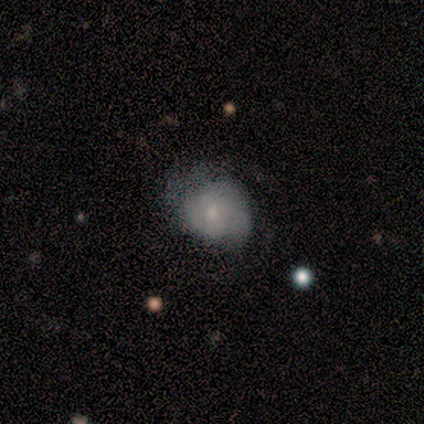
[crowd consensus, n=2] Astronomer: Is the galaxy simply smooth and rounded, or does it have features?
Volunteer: smooth — 50%, tied with star or artifact at 50%.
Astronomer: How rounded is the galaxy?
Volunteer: round — 100%.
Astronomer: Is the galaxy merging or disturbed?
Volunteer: minor disturbance — 100%.